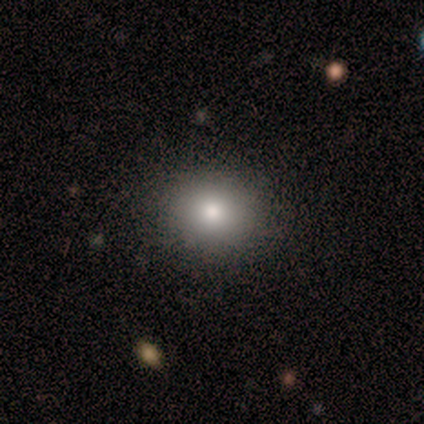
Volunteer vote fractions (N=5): A smooth galaxy with no disk features (100%) that is round (100%).

Vote fractions:
- Smooth or featured? smooth: 100% / featured or disk: 0% / star or artifact: 0%
- How rounded? round: 100% / in between: 0% / cigar-shaped: 0%
- Merging? none: 100% / minor disturbance: 0% / major disturbance: 0% / merger: 0%